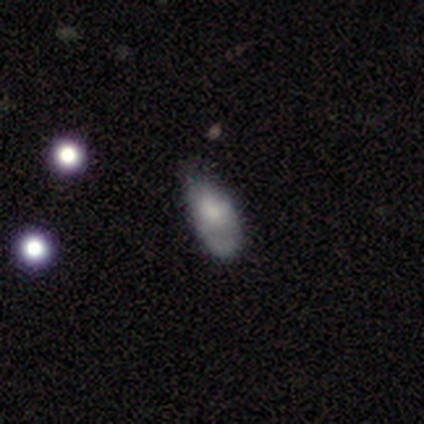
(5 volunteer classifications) Q: Smooth or featured?
A: smooth (60%); runner-up: featured or disk (40%)
Q: How rounded?
A: in between (100%)
Q: Merging?
A: none (40%); tied with: minor disturbance (40%)